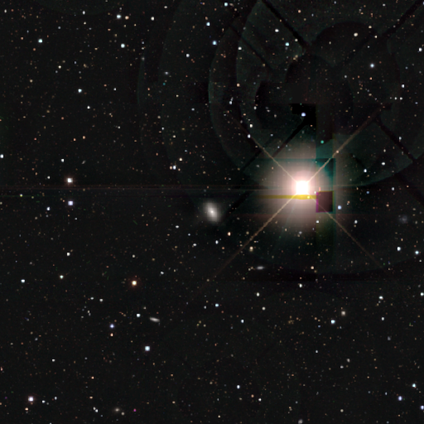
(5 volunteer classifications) Smooth or featured?
  - star or artifact: 60% *
  - smooth: 40%
  - featured or disk: 0%